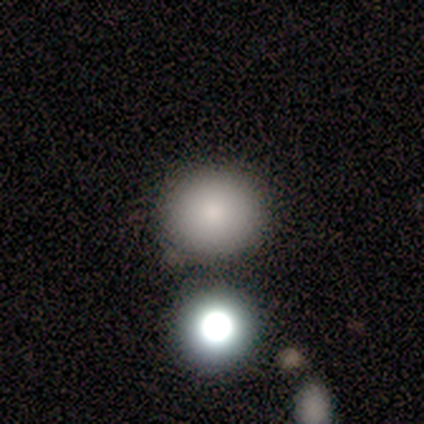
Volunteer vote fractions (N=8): This appears to be a smooth galaxy with no disk features (62%) that is round (100%). Merging: none (100%).